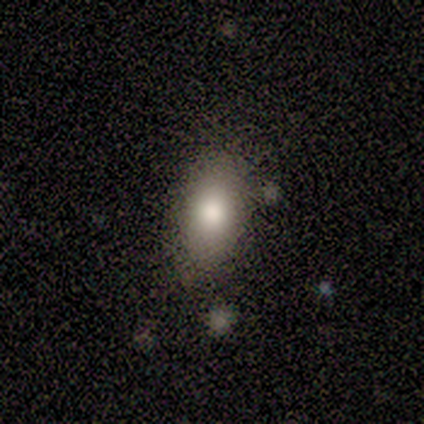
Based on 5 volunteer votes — Q: Smooth or featured?
A: smooth (100%)
Q: How rounded?
A: in between (80%); runner-up: cigar-shaped (20%)
Q: Merging?
A: none (80%); runner-up: minor disturbance (20%)